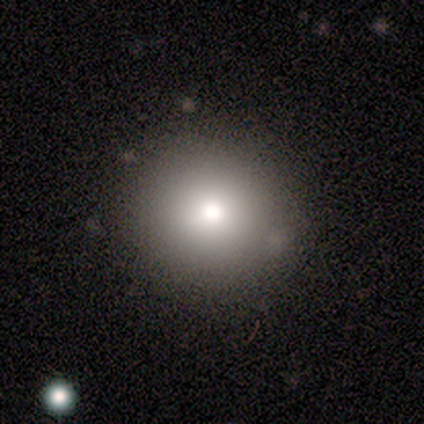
Smooth or featured? 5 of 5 (100%) said smooth. How rounded? 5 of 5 (100%) said round. Merging? 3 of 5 (60%) said none.